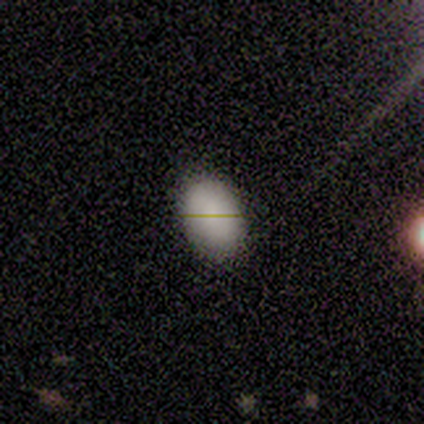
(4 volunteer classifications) Smooth or featured: smooth — 75% (featured or disk — 25%)
How rounded: in between — 100%
Merging: none — 75% (minor disturbance — 25%)